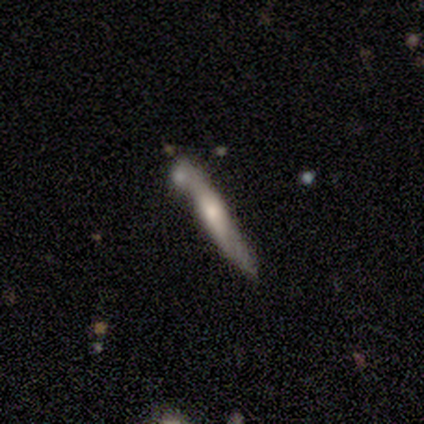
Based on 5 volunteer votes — smooth_or_featured: smooth (p=0.80) [alt: featured or disk p=0.20]
how_rounded: cigar-shaped (p=1.00)
merging: none (p=0.40) [tied with: minor disturbance p=0.40]